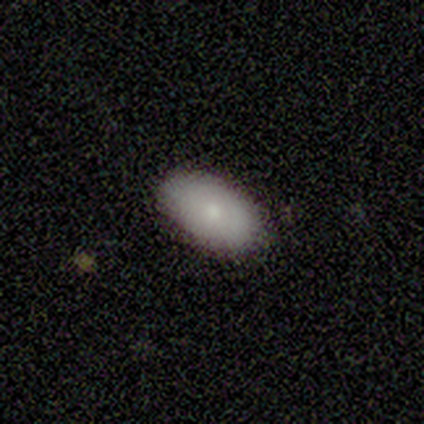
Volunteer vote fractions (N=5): smooth-or-featured: smooth: 80% | featured or disk: 20% | star or artifact: 0%
  how-rounded: in between: 100% | round: 0% | cigar-shaped: 0%
  merging: none: 100% | minor disturbance: 0% | major disturbance: 0% | merger: 0%